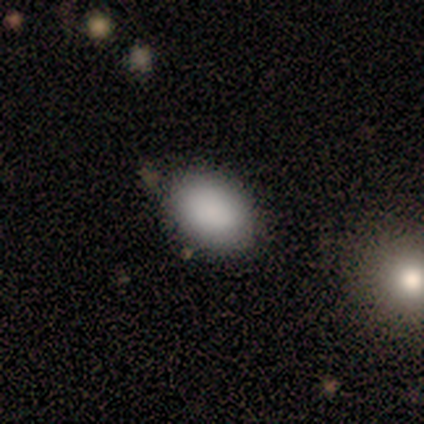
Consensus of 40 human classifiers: Smooth or featured? 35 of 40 (88%) said smooth. How rounded? 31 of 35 (89%) said in between. Merging? 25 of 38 (66%) said none.